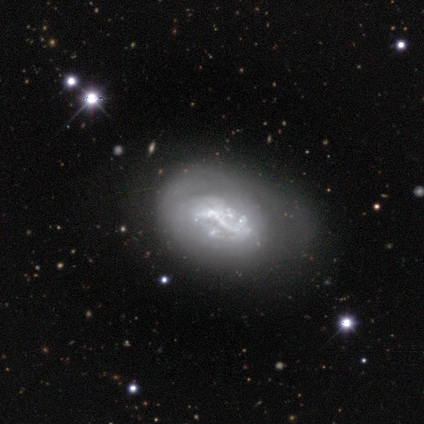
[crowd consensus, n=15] Smooth or featured: featured or disk — 87% (smooth — 7%)
Edge-on disk: no — 100%
Bar: no — 46% (strong — 31%)
Spiral arms: no — 62% (yes — 38%)
Bulge size: none — 46% (small — 23%)
Merging: none — 43% (minor disturbance — 36%)